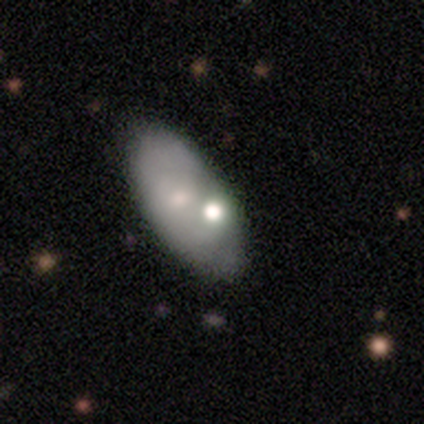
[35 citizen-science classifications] A smooth galaxy with no disk features (66%) that is in between round and cigar-shaped (96%). Merging: none (71%).